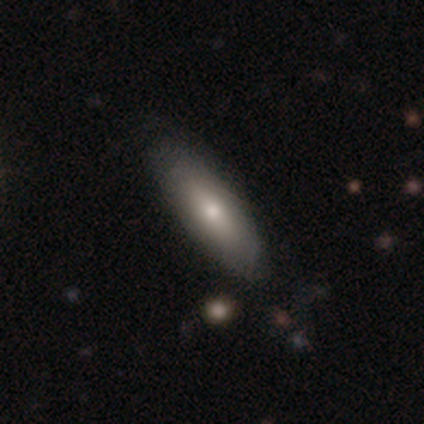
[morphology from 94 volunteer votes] Smooth or featured: smooth — 67% (featured or disk — 28%)
How rounded: in between — 51% (cigar-shaped — 49%)
Merging: none — 82% (minor disturbance — 11%)